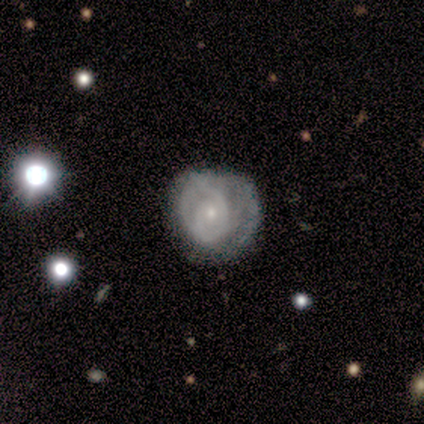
This is clearly a featured or disk galaxy (100%). It is clearly not viewed edge-on (100%). Bar: possibly weak (50%, tied with no). Spiral arm pattern: clearly yes (100%). Spiral arm count: likely 2 (75%). Spiral winding: likely tight (75%). Central bulge: likely small (75%). Merging: possibly minor disturbance (50%, tied with major disturbance).